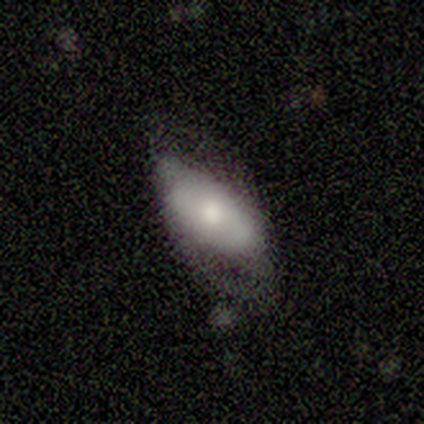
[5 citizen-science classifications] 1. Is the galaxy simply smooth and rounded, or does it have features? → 80% smooth, 20% featured or disk, 0% star or artifact.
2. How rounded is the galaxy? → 100% in between, 0% round, 0% cigar-shaped.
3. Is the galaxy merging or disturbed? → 60% minor disturbance, 40% none, 0% major disturbance, 0% merger.